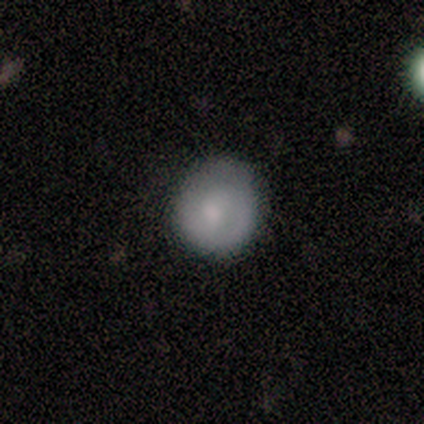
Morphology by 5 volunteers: Overall: featured or disk (60%; smooth 40%). Edge-on disk: no (100%). Bar: no (100%). Spiral arms: no (100%). Bulge size: dominant (33%, tied with small and none). Merging: none (80%).